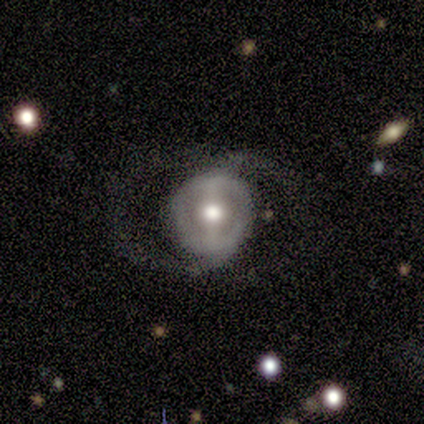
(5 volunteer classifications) A featured or disk galaxy (60%) with a strong bar (67%), 1 (50%, tied with can't tell) loose (100%) spiral arms (67%) and a moderate central bulge (100%).

Vote fractions:
- Smooth or featured? featured or disk: 60% / smooth: 40% / star or artifact: 0%
- Edge-on disk? no: 100% / yes: 0%
- Bar? strong: 67% / no: 33% / weak: 0%
- Spiral arms? yes: 67% / no: 33%
- Spiral winding? loose: 100% / tight: 0% / medium: 0%
- Spiral arm count? 1: 50% (tied) / can't tell: 50% (tied) / 2: 0% / 3: 0% / 4: 0% / more than 4: 0%
- Bulge size? moderate: 100% / dominant: 0% / large: 0% / small: 0% / none: 0%
- Merging? major disturbance: 60% / none: 20% / minor disturbance: 20% / merger: 0%